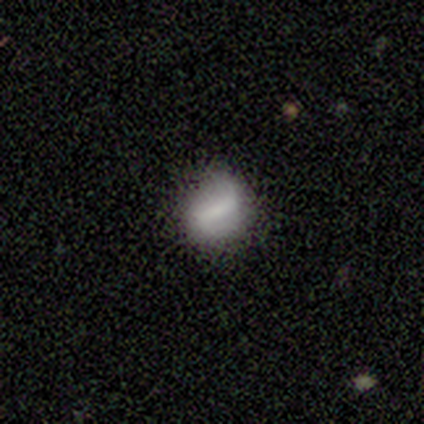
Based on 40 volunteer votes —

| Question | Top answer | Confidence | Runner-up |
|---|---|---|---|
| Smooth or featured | smooth | 50% | featured or disk (35%) |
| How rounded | round | 45% | tied: in between (45%) |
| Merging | none | 68% | minor disturbance (24%) |